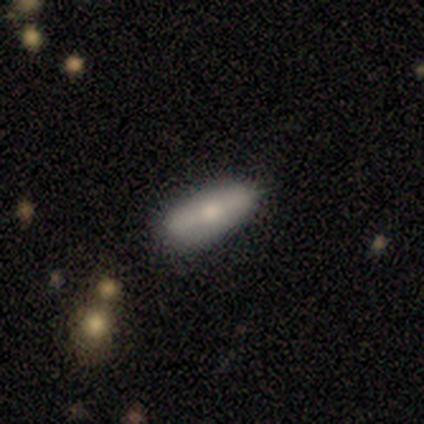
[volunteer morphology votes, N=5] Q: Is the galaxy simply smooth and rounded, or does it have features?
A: smooth — 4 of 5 (80%).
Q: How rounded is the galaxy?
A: in between — 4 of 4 (100%).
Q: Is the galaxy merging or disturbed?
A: none — 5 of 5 (100%).